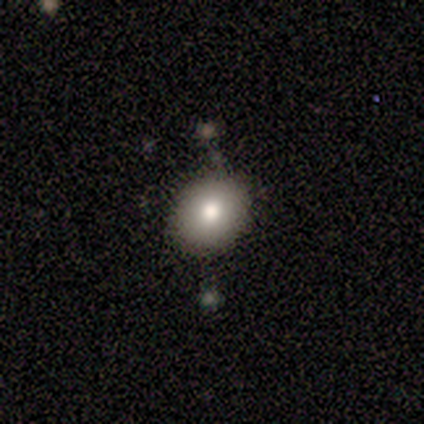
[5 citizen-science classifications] Smooth or featured? smooth (40%, tied with star or artifact)
How rounded? round (100%)
Merging? none (100%)